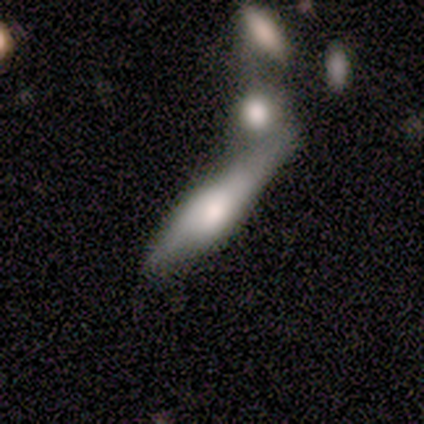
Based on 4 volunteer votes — smooth_or_featured: smooth (p=0.50) [tied with: featured or disk p=0.50]
how_rounded: in between (p=0.50) [tied with: cigar-shaped p=0.50]
merging: minor disturbance (p=0.50) [alt: major disturbance p=0.25]